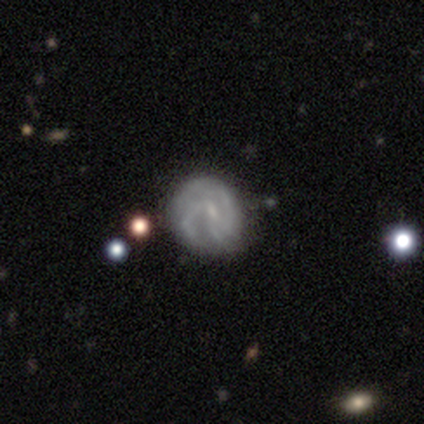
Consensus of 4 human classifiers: Volunteers were most divided on "spiral winding" (2-way tie): medium: 50%, loose: 50%, tight: 0%; "spiral arm count" (2-way tie): 4: 50%, can't tell: 50%, 1: 0%, 2: 0%, 3: 0%, more than 4: 0%; "bulge size" (3-way tie): moderate: 33%, small: 33%, none: 33%, dominant: 0%, large: 0%. More confident: edge-on disk — no (100%); smooth or featured — featured or disk (75%); merging — none (75%); bar — no (67%); spiral arms — yes (67%).